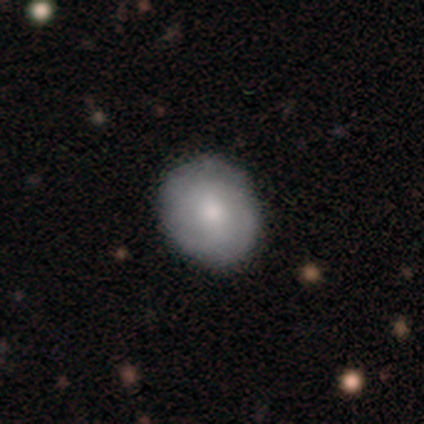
This appears to be a smooth galaxy with no disk features (51%) that is round (60%). Merging: none (73%).